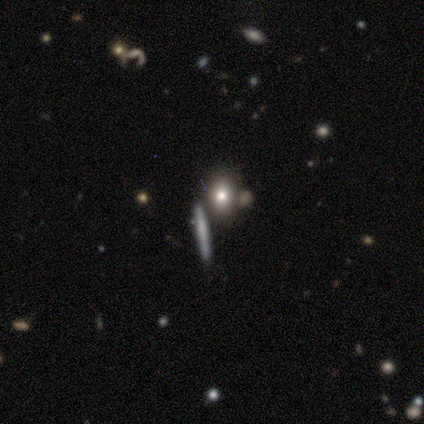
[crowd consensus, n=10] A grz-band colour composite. It shows a smooth galaxy with no disk features (90%) that is in between round and cigar-shaped (56%). Merging: none (70%).